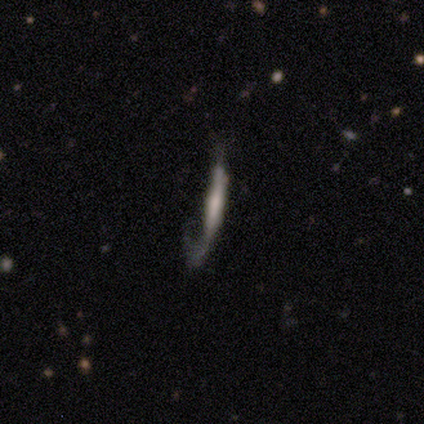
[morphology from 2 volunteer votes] Smooth or featured? featured or disk (100%)
Edge-on disk? no (100%)
Bar? no (100%)
Spiral arms? yes (50%, tied with no)
Spiral winding? loose (100%)
Spiral arm count? 1 (100%)
Bulge size? moderate (50%, tied with none)
Merging? major disturbance (100%)